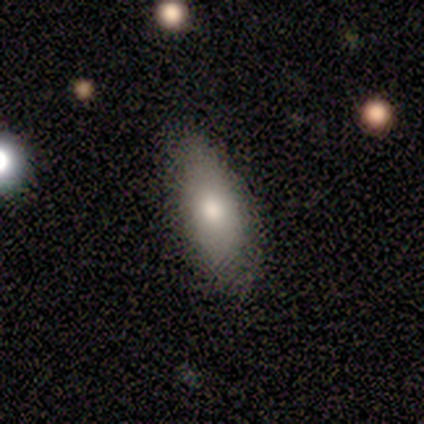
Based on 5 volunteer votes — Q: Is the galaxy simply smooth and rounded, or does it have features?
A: smooth — 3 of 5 (60%).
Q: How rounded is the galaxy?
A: in between — 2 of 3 (67%).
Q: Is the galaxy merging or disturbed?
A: none — 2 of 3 (67%).